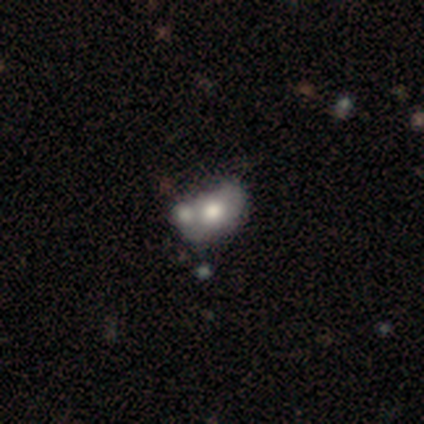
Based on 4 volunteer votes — Q: Smooth or featured?
A: smooth (50%); tied with: featured or disk (50%)
Q: How rounded?
A: in between (100%)
Q: Merging?
A: merger (75%); runner-up: major disturbance (25%)